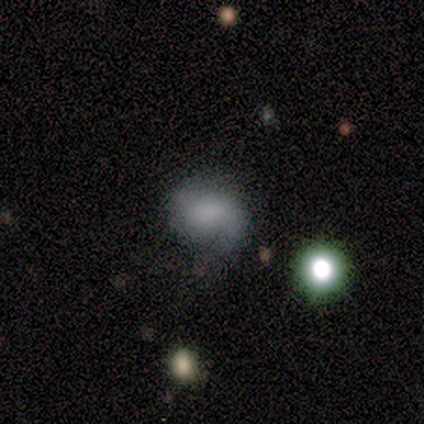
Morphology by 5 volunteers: A featured or disk galaxy (80%) with no bar (100%), 2 (100%) tight (50%, tied with medium) spiral arms (67%) and a moderate central bulge (33%, tied with small and none). Merging: none (60%).